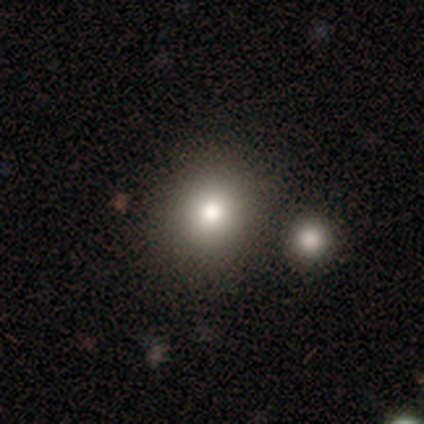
smooth 80%, star or artifact 20%, featured or disk 0%. Down the decision tree: how rounded — round (50%, tied with in between); merging — none (100%).